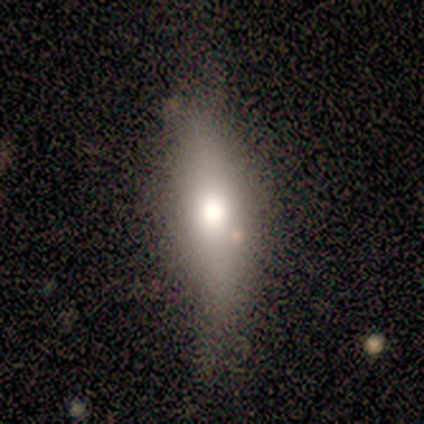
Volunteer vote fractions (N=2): Smooth or featured?
  - smooth: 100% *
  - featured or disk: 0%
  - star or artifact: 0%
How rounded?
  - in between: 50% * (tied)
  - cigar-shaped: 50% * (tied)
  - round: 0%
Merging?
  - none: 100% *
  - minor disturbance: 0%
  - major disturbance: 0%
  - merger: 0%